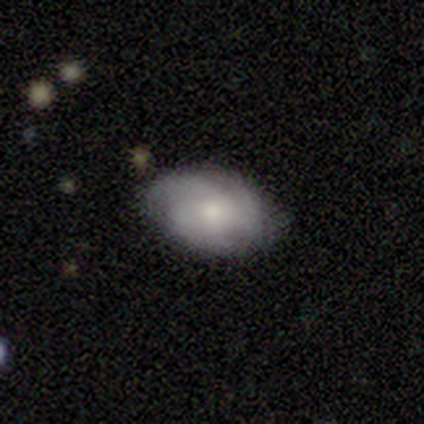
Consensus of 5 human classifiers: A smooth galaxy with no disk features (80%) that is in between round and cigar-shaped (100%).

Vote fractions:
- Smooth or featured? smooth: 80% / featured or disk: 20% / star or artifact: 0%
- How rounded? in between: 100% / round: 0% / cigar-shaped: 0%
- Merging? minor disturbance: 60% / none: 40% / major disturbance: 0% / merger: 0%